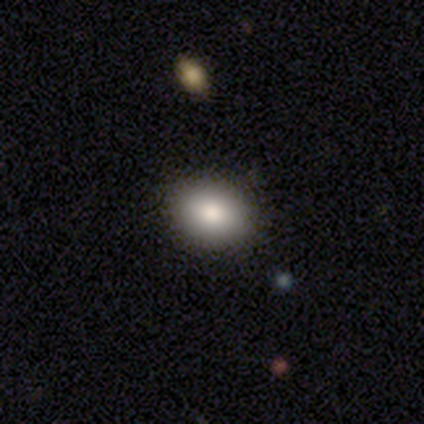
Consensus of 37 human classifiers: Morphology: type=smooth (81%); roundness=round (63%); merging=none (97%).